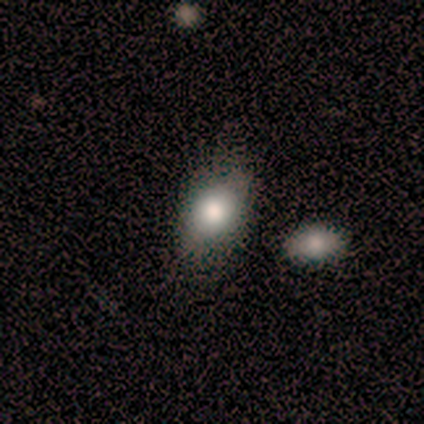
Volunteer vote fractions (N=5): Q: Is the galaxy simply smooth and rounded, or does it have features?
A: smooth — 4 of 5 (80%).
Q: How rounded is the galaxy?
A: in between — 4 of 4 (100%).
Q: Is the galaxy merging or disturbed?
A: none — 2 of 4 (50%).